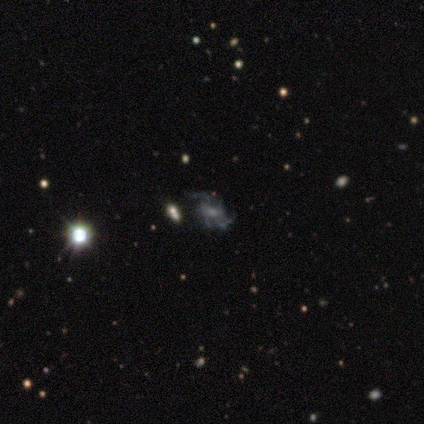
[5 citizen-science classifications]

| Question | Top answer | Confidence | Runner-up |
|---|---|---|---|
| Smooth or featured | featured or disk | 60% | smooth (20%) |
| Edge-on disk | no | 100% | — |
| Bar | no | 67% | weak (33%) |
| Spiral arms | yes | 100% | — |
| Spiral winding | tight | 33% | tied: medium (33%), loose (33%) |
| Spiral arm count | can't tell | 67% | 2 (33%) |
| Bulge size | large | 33% | tied: moderate (33%), none (33%) |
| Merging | minor disturbance | 75% | merger (25%) |